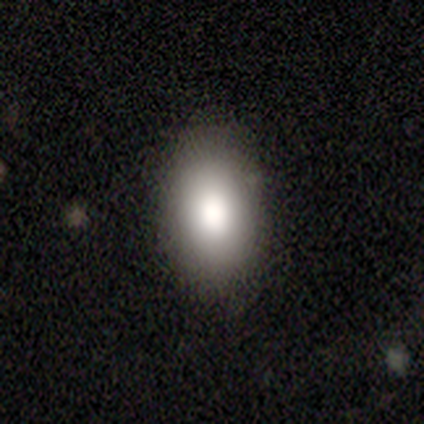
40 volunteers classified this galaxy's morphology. Smooth or featured: smooth — 80% (featured or disk — 10%)
How rounded: in between — 94% (round — 6%)
Merging: none — 86% (minor disturbance — 11%)